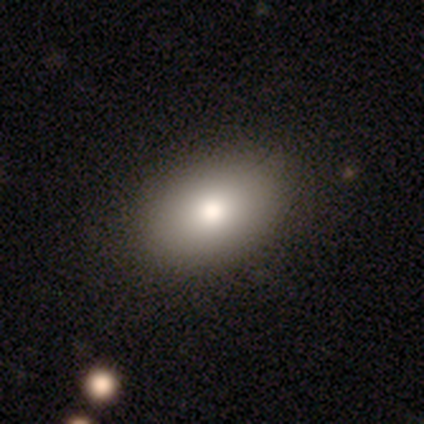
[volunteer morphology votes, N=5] Smooth or featured: smooth — 60% (featured or disk — 20%)
How rounded: in between — 100%
Merging: none — 100%